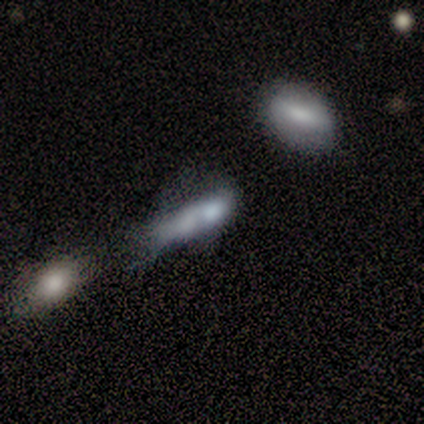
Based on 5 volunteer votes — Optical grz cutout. It shows a smooth galaxy with no disk features (60%) that is in between round and cigar-shaped (67%). Merging: merger (75%).